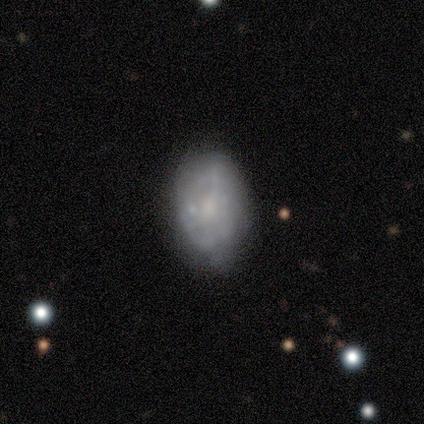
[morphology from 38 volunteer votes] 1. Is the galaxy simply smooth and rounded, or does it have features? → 76% featured or disk, 24% smooth, 0% star or artifact.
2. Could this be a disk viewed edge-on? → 97% no, 3% yes.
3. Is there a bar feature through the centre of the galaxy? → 86% no, 11% weak, 4% strong.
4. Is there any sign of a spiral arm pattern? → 79% no, 21% yes.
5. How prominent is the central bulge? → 54% small, 25% moderate, 21% none, 0% dominant, 0% large.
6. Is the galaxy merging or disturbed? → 34% none, 24% minor disturbance, 11% merger, 3% major disturbance.